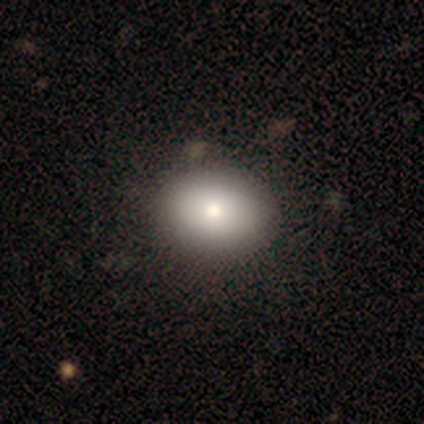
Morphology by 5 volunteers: A smooth galaxy with no disk features (40%, tied with featured or disk) that is round (50%, tied with in between).

Vote fractions:
- Smooth or featured? smooth: 40% (tied) / featured or disk: 40% (tied) / star or artifact: 20%
- How rounded? round: 50% (tied) / in between: 50% (tied) / cigar-shaped: 0%
- Merging? none: 100% / minor disturbance: 0% / major disturbance: 0% / merger: 0%